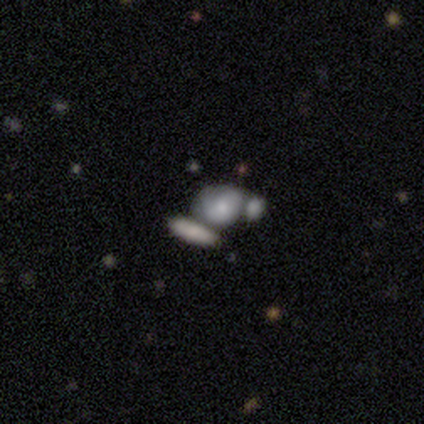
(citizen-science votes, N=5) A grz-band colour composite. It shows a smooth galaxy with no disk features (40%, tied with featured or disk) that is round (50%, tied with in between). Merging: minor disturbance (50%, tied with merger).